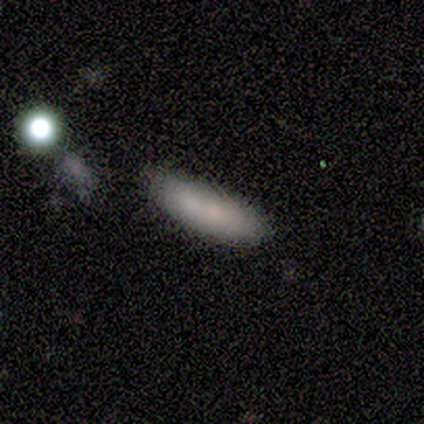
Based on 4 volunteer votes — Smooth or featured? smooth (75%)
How rounded? in between (100%)
Merging? none (50%)